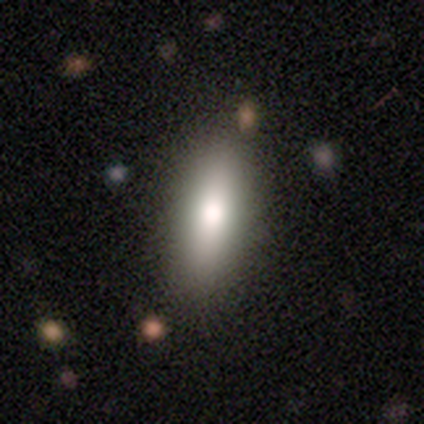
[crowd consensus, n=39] smooth_or_featured: smooth (p=0.85) [alt: featured or disk p=0.13]
how_rounded: in between (p=0.64) [alt: cigar-shaped p=0.33]
merging: none (p=0.87) [alt: minor disturbance p=0.13]